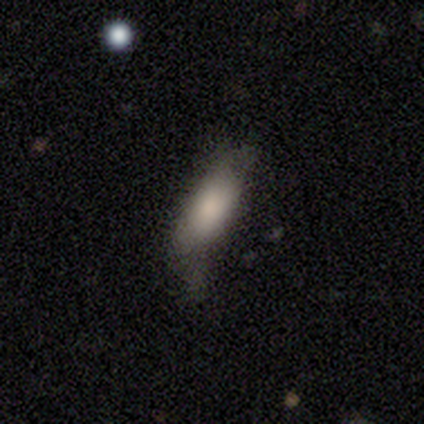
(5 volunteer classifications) Overall: smooth (100%). How rounded: cigar-shaped (80%). Merging: none (40%, tied with major disturbance).